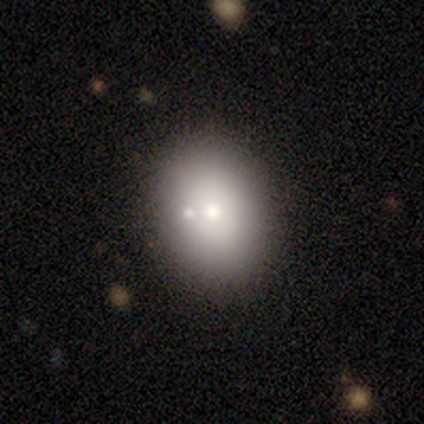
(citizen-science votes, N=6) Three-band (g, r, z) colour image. It shows a smooth galaxy with no disk features (50%) that is in between round and cigar-shaped (67%). Merging: none (40%).